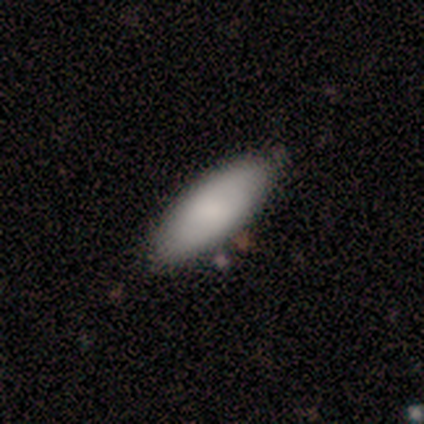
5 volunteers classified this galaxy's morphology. smooth 100%, featured or disk 0%, star or artifact 0%. Down the decision tree: how rounded — in between (80%); merging — none (100%).